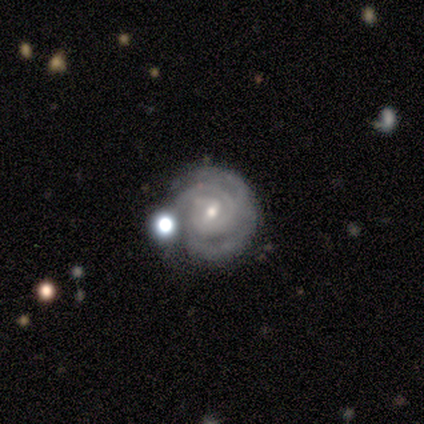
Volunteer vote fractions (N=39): Q: Smooth or featured?
A: featured or disk (95%); runner-up: smooth (3%)
Q: Edge-on disk?
A: no (100%)
Q: Bar?
A: weak (68%); runner-up: no (27%)
Q: Spiral arms?
A: yes (97%); runner-up: no (3%)
Q: Spiral winding?
A: tight (78%); runner-up: medium (17%)
Q: Spiral arm count?
A: 2 (33%); runner-up: 3 (31%)
Q: Bulge size?
A: small (59%); runner-up: moderate (41%)
Q: Merging?
A: none (71%); runner-up: minor disturbance (16%)